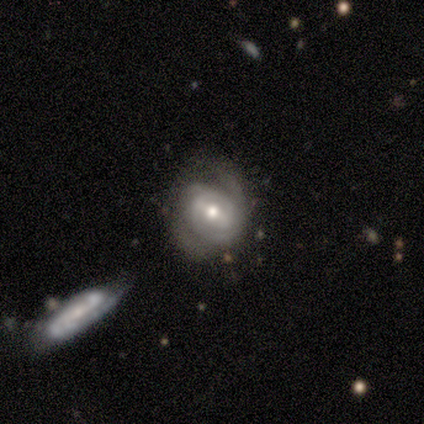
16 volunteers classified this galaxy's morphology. Smooth or featured? featured or disk (88%)
Edge-on disk? no (100%)
Bar? no (43%)
Spiral arms? yes (100%)
Spiral winding? medium (57%)
Spiral arm count? 2 (57%)
Bulge size? moderate (64%)
Merging? none (40%)